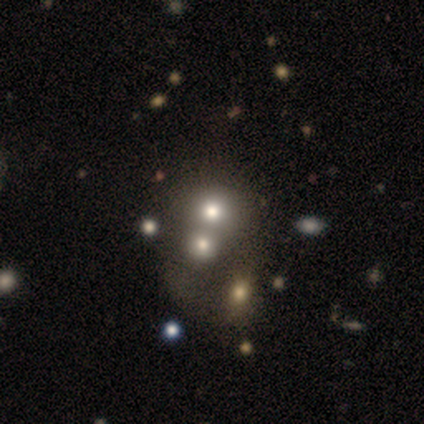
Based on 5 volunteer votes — Smooth or featured? smooth (60%)
How rounded? round (100%)
Merging? merger (75%)